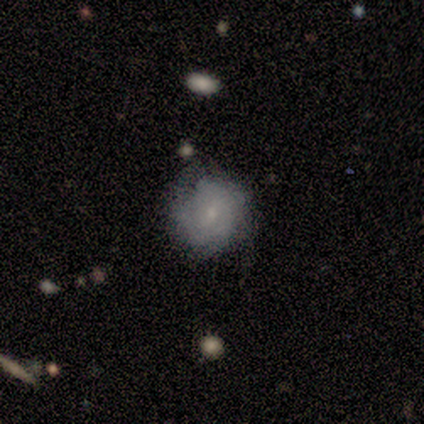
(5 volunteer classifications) Morphology: type=featured or disk (80%); edge-on=no (100%); bar=weak (50%, tied with no); spiral arms=yes (75%); winding=medium (67%); arm count=can't tell (67%); bulge=small (75%); merging=none (60%).